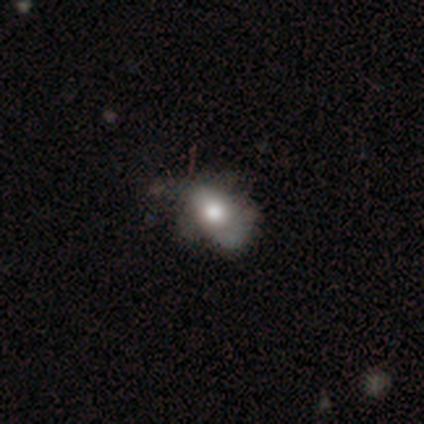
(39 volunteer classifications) Smooth or featured? smooth (62%)
How rounded? in between (79%)
Merging? minor disturbance (39%)